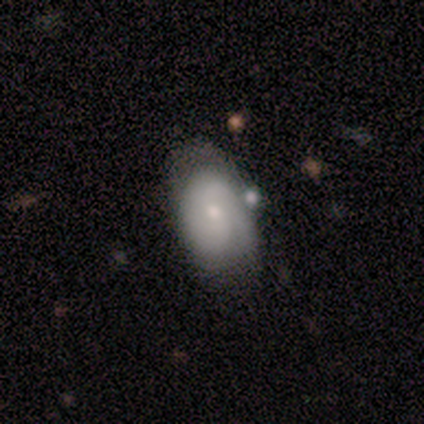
Q: Smooth or featured?
A: smooth (50%); runner-up: featured or disk (25%)
Q: How rounded?
A: in between (100%)
Q: Merging?
A: none (67%); runner-up: minor disturbance (33%)